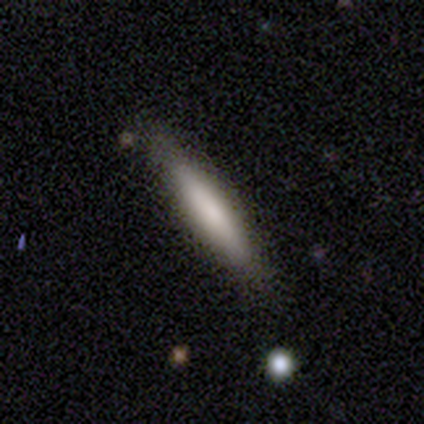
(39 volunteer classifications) smooth-or-featured: smooth: 74% | featured or disk: 26% | star or artifact: 0%
  how-rounded: cigar-shaped: 93% | in between: 7% | round: 0%
  merging: none: 90% | minor disturbance: 10% | major disturbance: 0% | merger: 0%